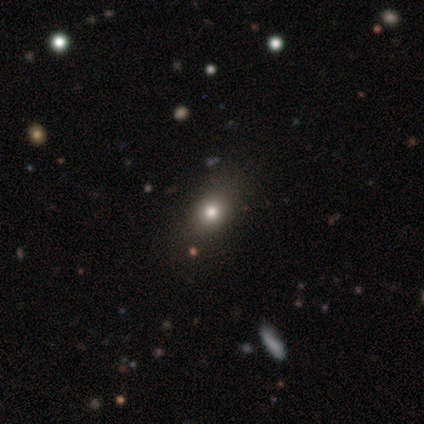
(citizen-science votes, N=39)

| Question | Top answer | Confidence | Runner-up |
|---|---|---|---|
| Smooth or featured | smooth | 56% | star or artifact (33%) |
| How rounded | round | 64% | in between (36%) |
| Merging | none | 77% | minor disturbance (15%) |